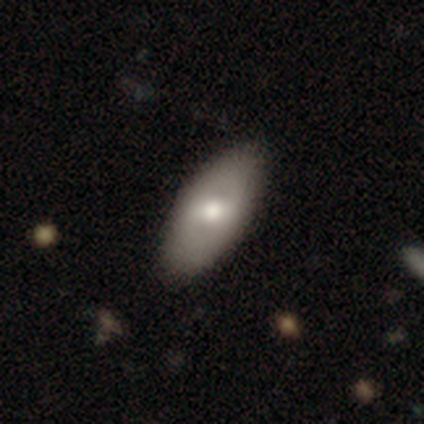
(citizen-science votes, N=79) Volunteers were most divided on "smooth or featured": smooth: 52%, featured or disk: 43%, star or artifact: 5%. More confident: how rounded — in between (90%); merging — none (63%).